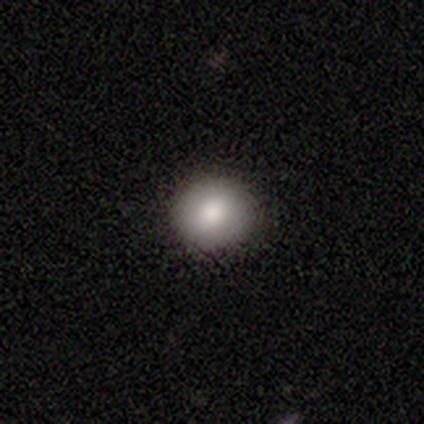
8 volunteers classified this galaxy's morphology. Smooth or featured?
  - smooth: 88% *
  - featured or disk: 12%
  - star or artifact: 0%
How rounded?
  - round: 71% *
  - in between: 29%
  - cigar-shaped: 0%
Merging?
  - none: 88% *
  - minor disturbance: 12%
  - major disturbance: 0%
  - merger: 0%